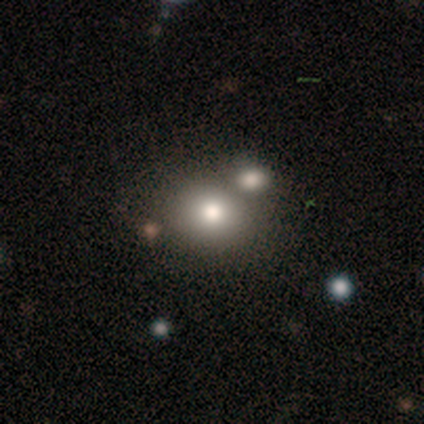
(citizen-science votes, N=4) A star or artifact, not a galaxy (50%).